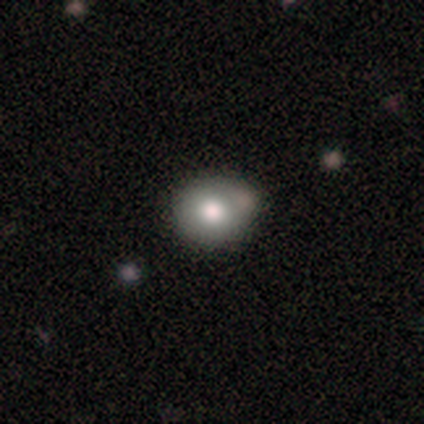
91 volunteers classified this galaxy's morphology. smooth-or-featured: smooth: 81% | featured or disk: 10% | star or artifact: 9%
  how-rounded: round: 69% | in between: 31% | cigar-shaped: 0%
  merging: none: 63% | minor disturbance: 29% | merger: 7% | major disturbance: 1%